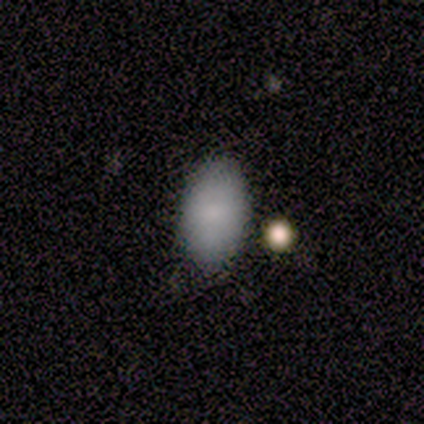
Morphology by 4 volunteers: This is likely a smooth galaxy (75%). How rounded: clearly in between (100%). Merging: likely none (75%).